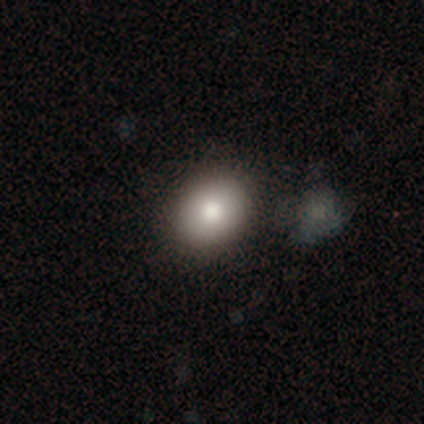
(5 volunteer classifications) A smooth galaxy with no disk features (80%) that is in between round and cigar-shaped (75%).

Vote fractions:
- Smooth or featured? smooth: 80% / star or artifact: 20% / featured or disk: 0%
- How rounded? in between: 75% / round: 25% / cigar-shaped: 0%
- Merging? none: 50% (tied) / minor disturbance: 50% (tied) / major disturbance: 0% / merger: 0%